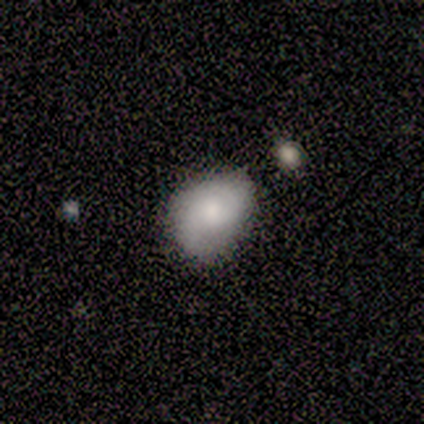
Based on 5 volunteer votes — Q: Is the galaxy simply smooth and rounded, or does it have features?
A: featured or disk — 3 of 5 (60%).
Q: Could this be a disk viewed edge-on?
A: no — 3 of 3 (100%).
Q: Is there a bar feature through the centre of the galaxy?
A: no — 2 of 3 (67%).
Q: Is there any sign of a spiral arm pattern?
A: yes — 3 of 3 (100%).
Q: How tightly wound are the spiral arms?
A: medium — 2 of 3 (67%).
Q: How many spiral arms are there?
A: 2 — 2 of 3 (67%).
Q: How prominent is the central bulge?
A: moderate — 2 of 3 (67%).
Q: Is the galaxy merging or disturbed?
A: none — 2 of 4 (50%, tied with minor disturbance).